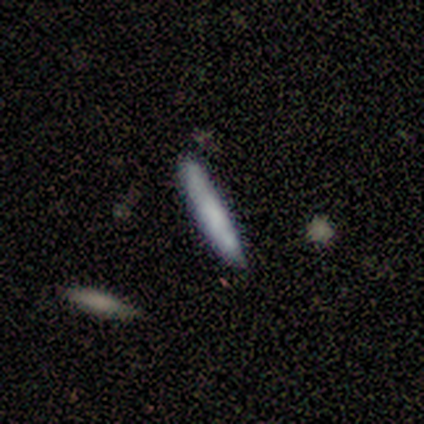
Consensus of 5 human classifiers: smooth-or-featured: smooth: 80% | featured or disk: 20% | star or artifact: 0%
  how-rounded: cigar-shaped: 100% | round: 0% | in between: 0%
  merging: none: 80% | minor disturbance: 20% | major disturbance: 0% | merger: 0%